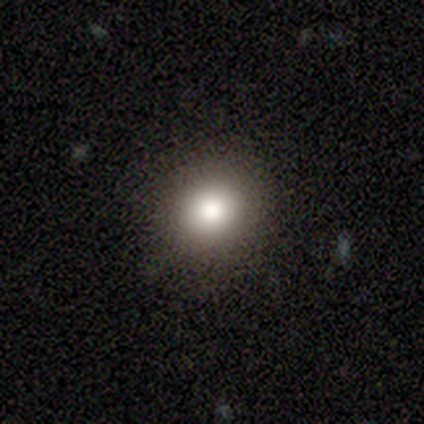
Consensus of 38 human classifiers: A smooth galaxy with no disk features (71%) that is round (81%). Merging: none (87%).